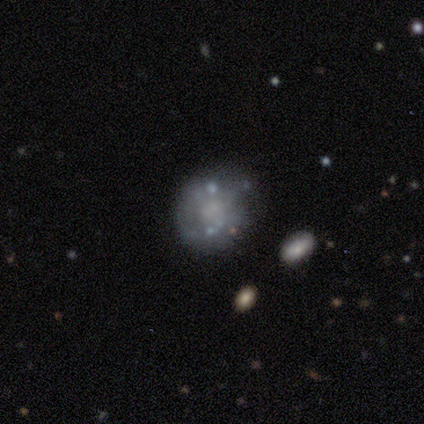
This is likely a featured or disk galaxy (60%). It is clearly not viewed edge-on (100%). Bar: clearly no (100%). Spiral arm pattern: likely no (67%). Central bulge: marginally moderate (33%, tied with small and none). Merging: likely none (60%).